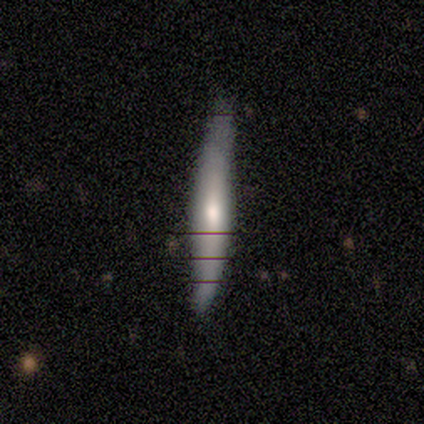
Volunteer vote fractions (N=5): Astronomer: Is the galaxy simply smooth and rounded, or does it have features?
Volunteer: featured or disk — 60% (runner-up: smooth, 40%).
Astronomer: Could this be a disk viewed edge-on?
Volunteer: yes — 100%.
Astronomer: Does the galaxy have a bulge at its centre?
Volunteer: rounded — 100%.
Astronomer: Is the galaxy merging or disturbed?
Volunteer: none — 80%.